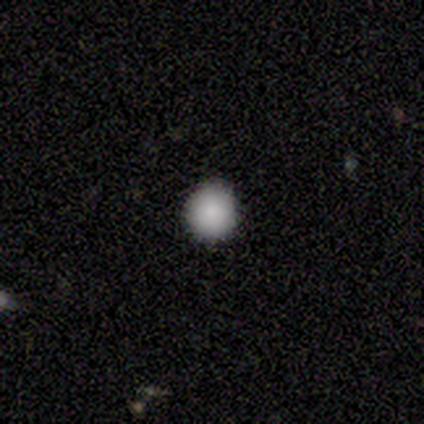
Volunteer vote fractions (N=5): Volunteers were most divided on "smooth or featured": smooth: 80%, star or artifact: 20%, featured or disk: 0%. More confident: how rounded — round (100%); merging — none (100%).